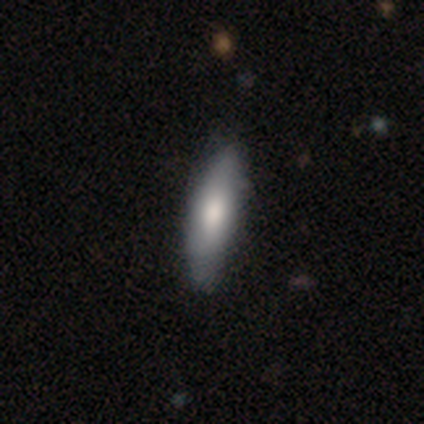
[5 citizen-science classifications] Smooth or featured?
  - smooth: 40% * (tied)
  - featured or disk: 40% * (tied)
  - star or artifact: 20%
How rounded?
  - in between: 50% * (tied)
  - cigar-shaped: 50% * (tied)
  - round: 0%
Merging?
  - none: 75% *
  - minor disturbance: 25%
  - major disturbance: 0%
  - merger: 0%